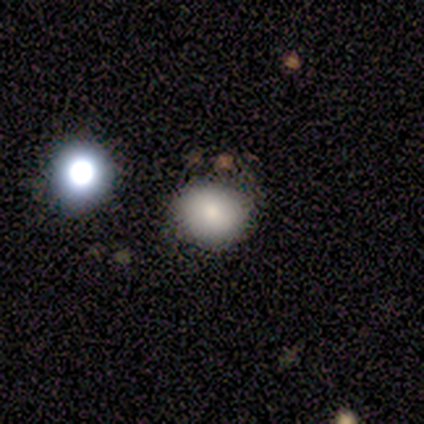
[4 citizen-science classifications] A smooth galaxy with no disk features (100%) that is round (100%).

Vote fractions:
- Smooth or featured? smooth: 100% / featured or disk: 0% / star or artifact: 0%
- How rounded? round: 100% / in between: 0% / cigar-shaped: 0%
- Merging? none: 100% / minor disturbance: 0% / major disturbance: 0% / merger: 0%